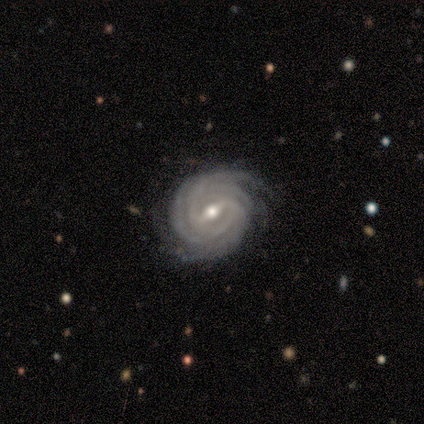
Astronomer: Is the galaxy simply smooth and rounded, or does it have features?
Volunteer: featured or disk — 100%.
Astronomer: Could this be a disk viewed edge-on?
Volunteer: no — 80%.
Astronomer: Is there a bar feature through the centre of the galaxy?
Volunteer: weak — 75%.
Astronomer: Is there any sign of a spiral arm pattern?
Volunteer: yes — 100%.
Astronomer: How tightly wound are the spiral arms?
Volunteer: tight — 100%.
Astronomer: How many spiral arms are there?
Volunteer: more than 4 — 75%.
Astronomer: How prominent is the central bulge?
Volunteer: moderate — 75%.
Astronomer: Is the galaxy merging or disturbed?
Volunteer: none — 80%.